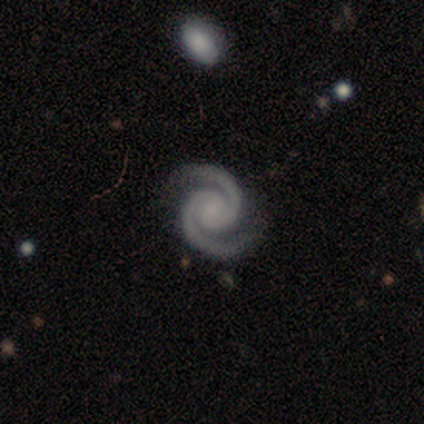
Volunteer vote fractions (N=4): Smooth or featured? featured or disk (100%)
Edge-on disk? no (100%)
Bar? no (75%)
Spiral arms? yes (100%)
Spiral winding? tight (100%)
Spiral arm count? 2 (100%)
Bulge size? small (50%)
Merging? none (100%)